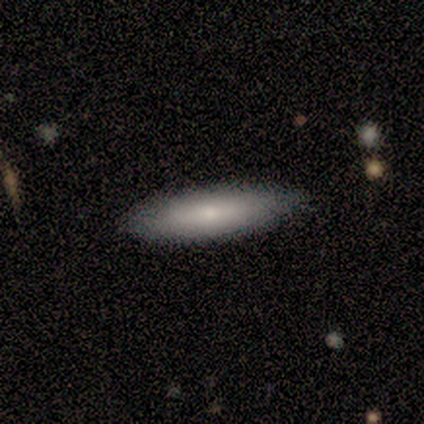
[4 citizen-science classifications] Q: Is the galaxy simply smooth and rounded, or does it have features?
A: featured or disk — 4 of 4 (100%).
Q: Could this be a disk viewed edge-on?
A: yes — 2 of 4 (50%, tied with no).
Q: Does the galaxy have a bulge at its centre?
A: rounded — 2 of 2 (100%).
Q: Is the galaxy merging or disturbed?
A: none — 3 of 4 (75%).